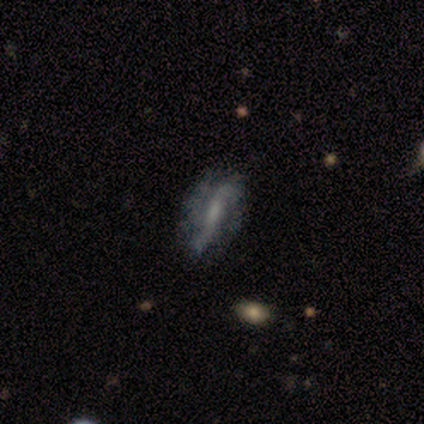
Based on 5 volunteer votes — smooth-or-featured: featured or disk: 60% | smooth: 20% | star or artifact: 20%
  disk-edge-on: no: 100% | yes: 0%
    bar: strong: 67% | no: 33% | weak: 0%
    has-spiral-arms: yes: 100% | no: 0%
      spiral-winding: loose: 100% | tight: 0% | medium: 0%
      spiral-arm-count: 2: 67% | 3: 33% | 1: 0% | 4: 0% | more than 4: 0% | can't tell: 0%
    bulge-size: moderate: 33% (tied) | small: 33% (tied) | none: 33% (tied) | dominant: 0% | large: 0%
  merging: none: 75% | minor disturbance: 25% | major disturbance: 0% | merger: 0%